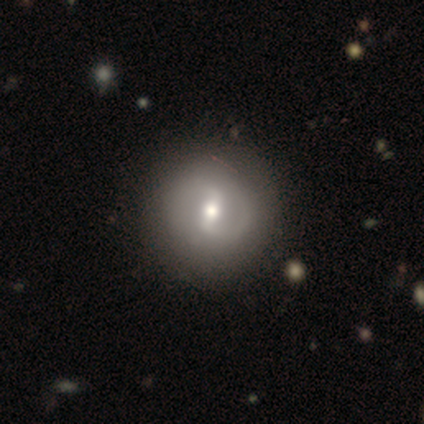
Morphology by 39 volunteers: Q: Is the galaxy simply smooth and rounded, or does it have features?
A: featured or disk — 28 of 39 (72%).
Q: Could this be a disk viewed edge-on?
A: no — 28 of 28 (100%).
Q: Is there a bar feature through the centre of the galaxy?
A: strong — 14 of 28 (50%).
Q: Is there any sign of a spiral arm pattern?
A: yes — 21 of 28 (75%).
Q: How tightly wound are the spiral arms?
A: medium — 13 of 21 (62%).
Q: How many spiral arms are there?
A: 2 — 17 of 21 (81%).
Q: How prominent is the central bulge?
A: moderate — 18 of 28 (64%).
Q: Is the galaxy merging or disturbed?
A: none — 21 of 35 (60%).